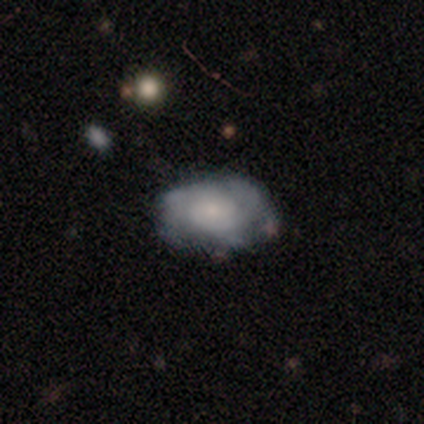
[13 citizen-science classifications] smooth_or_featured: smooth (p=0.54) [alt: featured or disk p=0.46]
how_rounded: in between (p=0.71) [alt: round p=0.29]
merging: none (p=0.62) [alt: minor disturbance p=0.31]